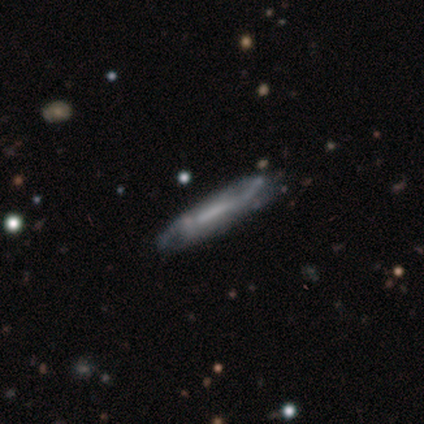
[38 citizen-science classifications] Volunteers were most divided on "bar": no: 40%, strong: 33%, weak: 27%. Remaining: merging — none (80%); edge-on disk — no (68%); spiral arms — yes (67%); spiral arm count — 2 (60%); smooth or featured — featured or disk (58%); spiral winding — loose (50%); bulge size — none (40%).